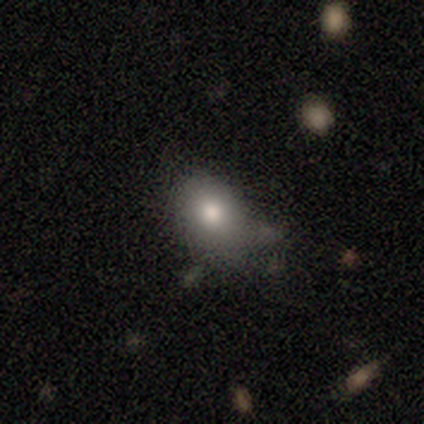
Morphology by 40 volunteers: This is likely a smooth galaxy (72%). How rounded: likely in between (79%). Merging: possibly none (56%).